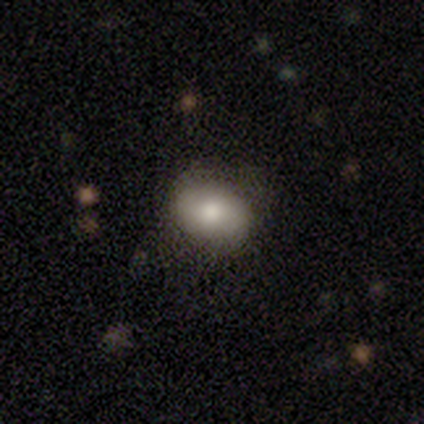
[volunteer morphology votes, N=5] Smooth or featured? 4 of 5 (80%) said smooth. How rounded? 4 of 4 (100%) said in between. Merging? 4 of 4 (100%) said none.